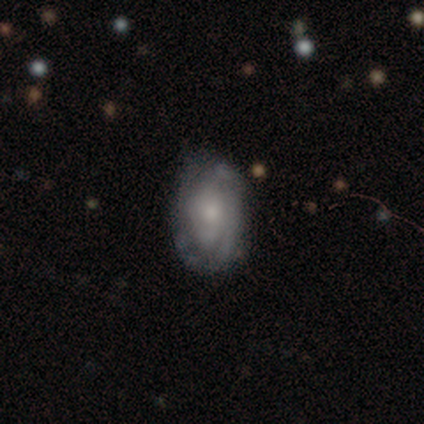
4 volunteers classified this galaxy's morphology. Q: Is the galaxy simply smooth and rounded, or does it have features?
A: smooth — 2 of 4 (50%, tied with featured or disk).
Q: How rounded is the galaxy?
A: in between — 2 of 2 (100%).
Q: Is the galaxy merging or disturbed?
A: none — 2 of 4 (50%, tied with minor disturbance).